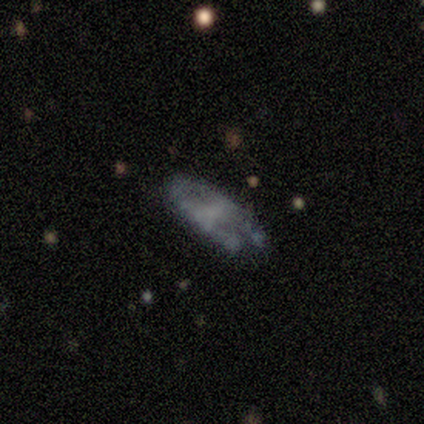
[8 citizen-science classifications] Volunteers were most divided on "merging": none: 43%, minor disturbance: 29%, major disturbance: 29%, merger: 0%. More confident: edge-on disk — no (80%); bar — no (75%); spiral arms — no (75%); bulge size — none (75%); smooth or featured — featured or disk (62%).